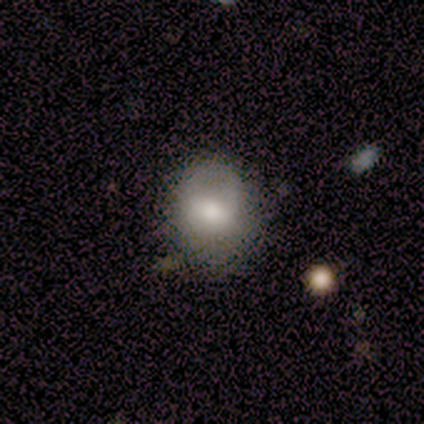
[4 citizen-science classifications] This is clearly a smooth galaxy (100%). How rounded: clearly round (100%). Merging: likely none (75%).